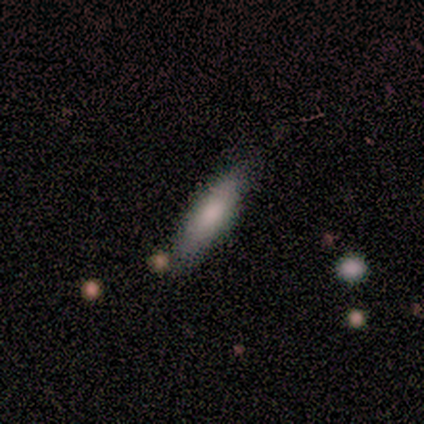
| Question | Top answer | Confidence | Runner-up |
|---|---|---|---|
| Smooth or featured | smooth | 67% | featured or disk (33%) |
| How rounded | in between | 50% | tied: cigar-shaped (50%) |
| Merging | none | 83% | merger (17%) |